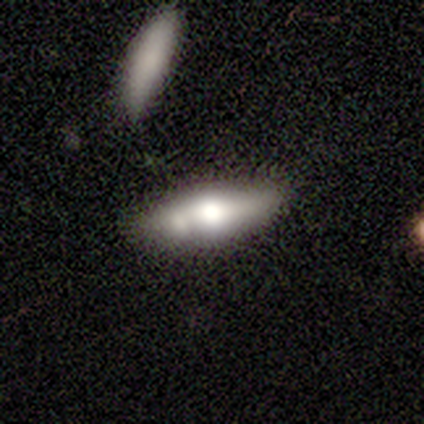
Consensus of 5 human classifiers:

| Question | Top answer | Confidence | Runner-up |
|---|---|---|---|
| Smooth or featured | smooth | 80% | featured or disk (20%) |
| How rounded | in between | 50% | tied: cigar-shaped (50%) |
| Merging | none | 100% | — |